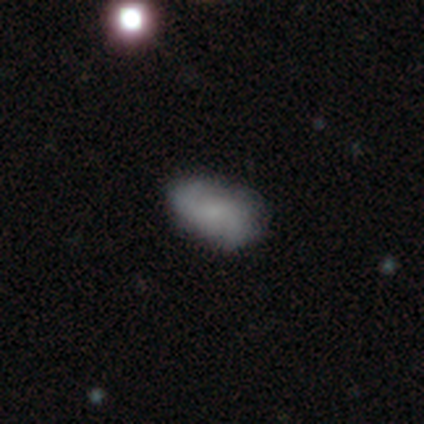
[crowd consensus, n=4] This is possibly a smooth galaxy (50%, tied with featured or disk). How rounded: clearly in between (100%). Merging: clearly none (100%).